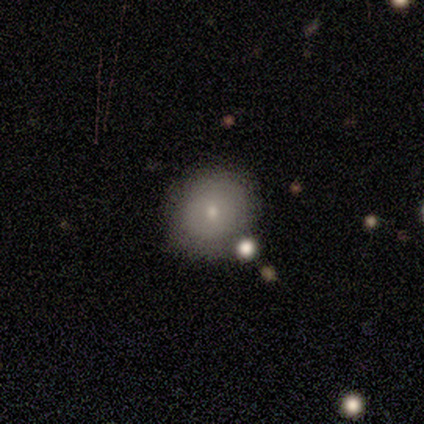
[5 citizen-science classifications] This appears to be a smooth galaxy with no disk features (80%) that is round (100%). Merging: none (100%).